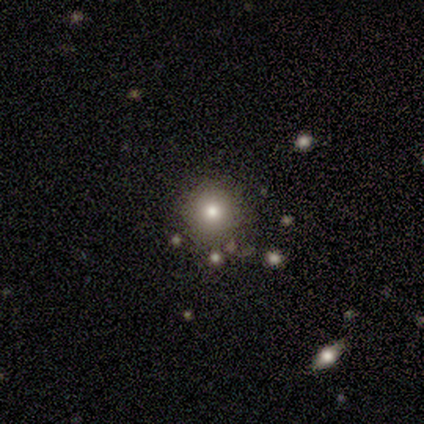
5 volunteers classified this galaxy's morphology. smooth_or_featured: smooth (p=0.60) [alt: featured or disk p=0.40]
how_rounded: round (p=1.00)
merging: none (p=1.00)